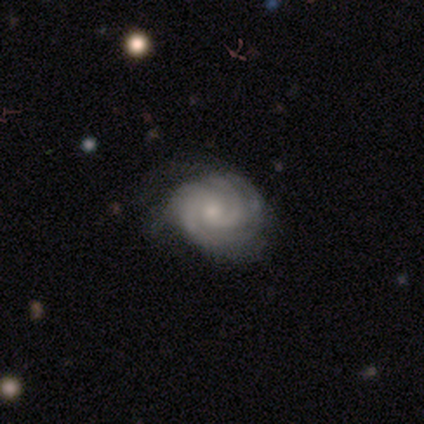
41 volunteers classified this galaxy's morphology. This is clearly a featured or disk galaxy (95%). It is clearly not viewed edge-on (100%). Bar: likely no (79%). Spiral arm pattern: clearly yes (97%). Spiral arm count: marginally can't tell (29%). Spiral winding: clearly tight (82%). Central bulge: possibly small (51%). Merging: possibly none (50%).